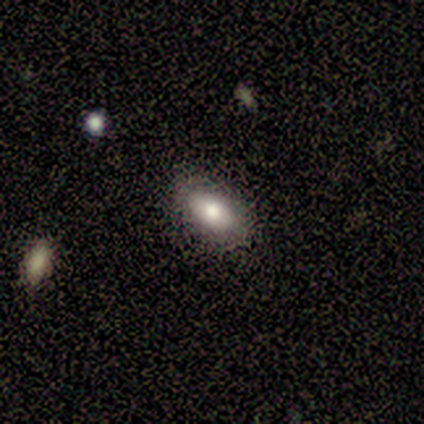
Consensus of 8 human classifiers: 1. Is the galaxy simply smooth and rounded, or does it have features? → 75% smooth, 25% featured or disk, 0% star or artifact.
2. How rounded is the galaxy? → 100% in between, 0% round, 0% cigar-shaped.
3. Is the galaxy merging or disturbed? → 88% none, 12% minor disturbance, 0% major disturbance, 0% merger.